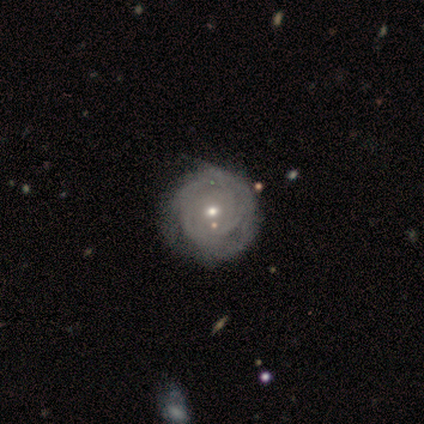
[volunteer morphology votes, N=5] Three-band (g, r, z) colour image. It shows a featured or disk galaxy (80%) with no bar (100%), tight (67%) spiral arms (75%) and a moderate central bulge (75%). Merging: none (40%, tied with minor disturbance).